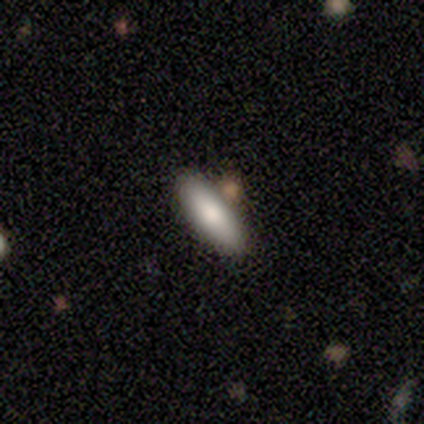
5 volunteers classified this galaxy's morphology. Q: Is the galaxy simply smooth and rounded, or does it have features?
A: smooth — 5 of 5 (100%).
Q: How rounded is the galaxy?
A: in between — 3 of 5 (60%).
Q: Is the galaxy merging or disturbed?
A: none — 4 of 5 (80%).